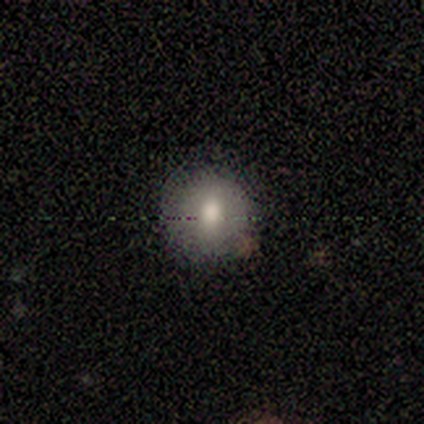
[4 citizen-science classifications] This appears to be a smooth galaxy with no disk features (75%) that is round (100%). Merging: none (100%).